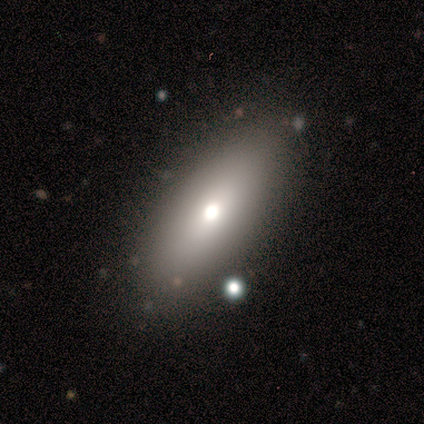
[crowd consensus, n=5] This appears to be a smooth galaxy with no disk features (40%, tied with featured or disk) that is in between round and cigar-shaped (100%). Merging: none (100%).